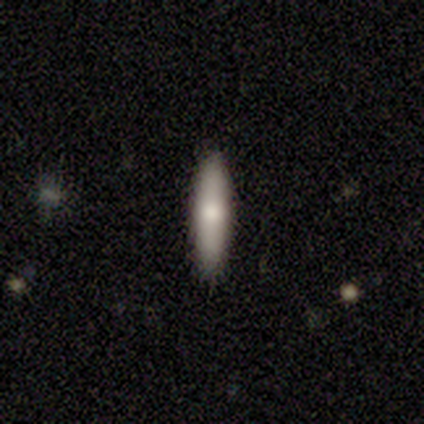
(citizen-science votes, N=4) smooth_or_featured: smooth (p=0.75) [alt: featured or disk p=0.25]
how_rounded: in between (p=0.67) [alt: cigar-shaped p=0.33]
merging: none (p=1.00)